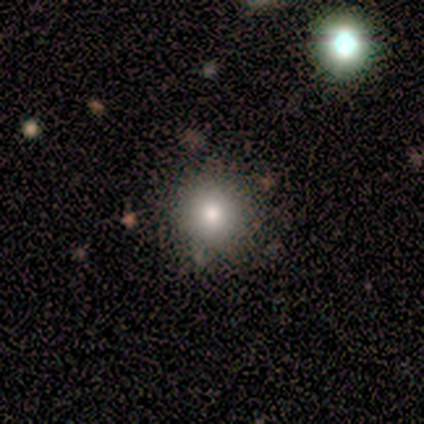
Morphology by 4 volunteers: Smooth or featured?
  - smooth: 75% *
  - featured or disk: 25%
  - star or artifact: 0%
How rounded?
  - round: 100% *
  - in between: 0%
  - cigar-shaped: 0%
Merging?
  - none: 75% *
  - minor disturbance: 25%
  - major disturbance: 0%
  - merger: 0%